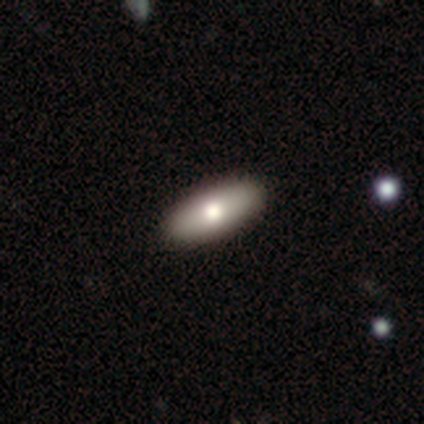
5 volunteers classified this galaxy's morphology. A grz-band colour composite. It shows a smooth galaxy with no disk features (100%) that is in between round and cigar-shaped (100%). Merging: none (100%).